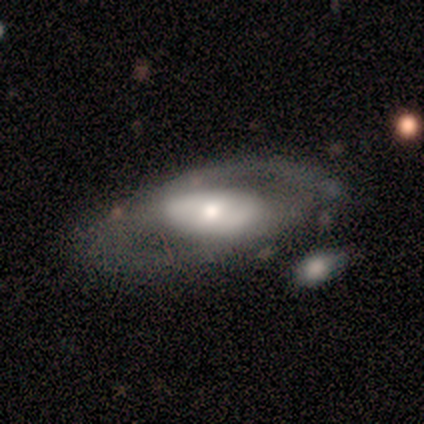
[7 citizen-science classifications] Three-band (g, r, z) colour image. It shows a featured or disk galaxy (86%) with no bar (83%), no spiral arms (67%) and a large central bulge (33%, tied with moderate and small). Merging: none (71%).